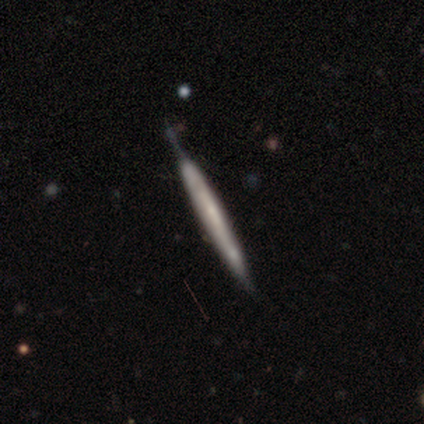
smooth_or_featured: smooth (p=0.50) [tied with: featured or disk p=0.50]
how_rounded: cigar-shaped (p=1.00)
merging: none (p=0.75) [alt: minor disturbance p=0.25]